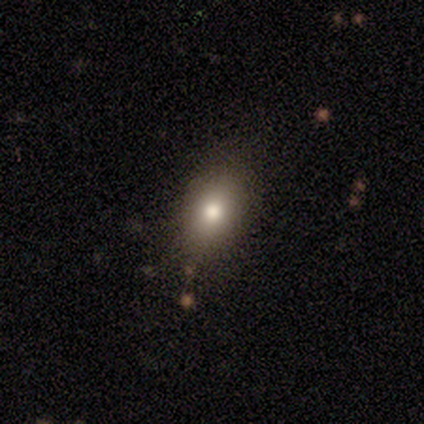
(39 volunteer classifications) Smooth or featured: smooth — 82% (featured or disk — 10%)
How rounded: in between — 88% (round — 9%)
Merging: none — 58% (minor disturbance — 8%)